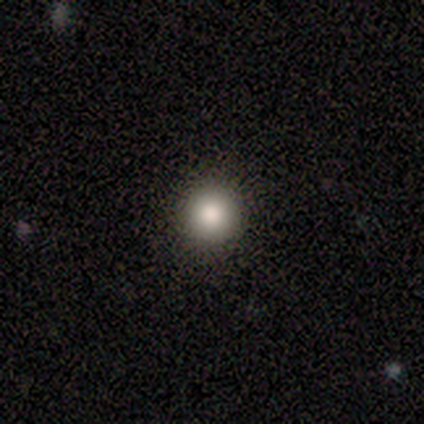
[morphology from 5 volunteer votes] Smooth or featured: smooth — 60% (star or artifact — 40%)
How rounded: round — 67% (in between — 33%)
Merging: none — 100%